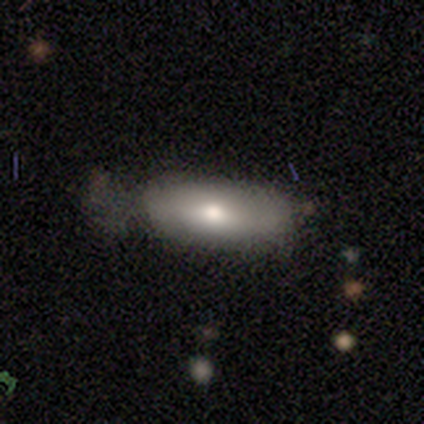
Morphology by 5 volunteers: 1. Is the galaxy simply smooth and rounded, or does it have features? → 60% smooth, 40% featured or disk, 0% star or artifact.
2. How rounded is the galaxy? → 100% in between, 0% round, 0% cigar-shaped.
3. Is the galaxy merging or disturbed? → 60% none, 20% minor disturbance, 20% major disturbance, 0% merger.